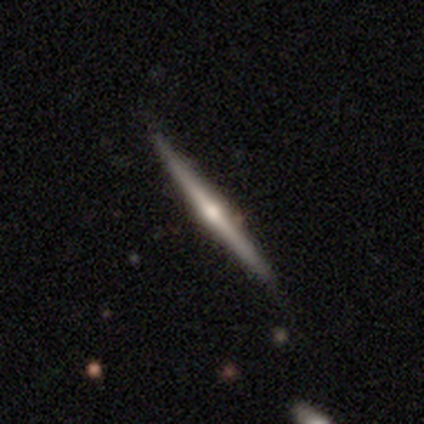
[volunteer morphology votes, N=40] smooth_or_featured: featured or disk (p=0.88) [alt: smooth p=0.12]
disk_edge_on: yes (p=1.00)
edge_on_bulge: rounded (p=0.86) [alt: boxy p=0.09]
merging: none (p=0.82) [alt: minor disturbance p=0.10]